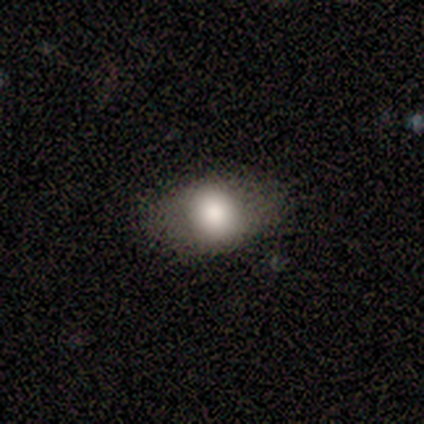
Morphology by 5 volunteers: A smooth galaxy with no disk features (100%) that is in between round and cigar-shaped (60%).

Vote fractions:
- Smooth or featured? smooth: 100% / featured or disk: 0% / star or artifact: 0%
- How rounded? in between: 60% / round: 40% / cigar-shaped: 0%
- Merging? none: 80% / major disturbance: 20% / minor disturbance: 0% / merger: 0%